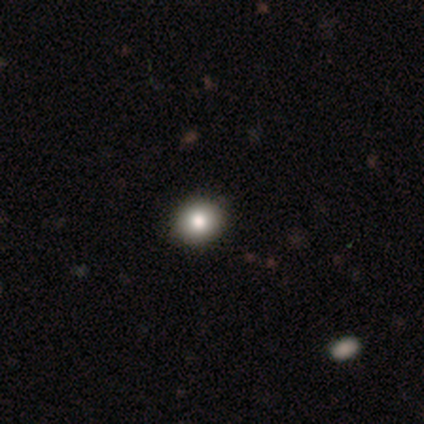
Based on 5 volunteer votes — This appears to be a smooth galaxy with no disk features (100%) that is round (100%). Merging: none (80%).